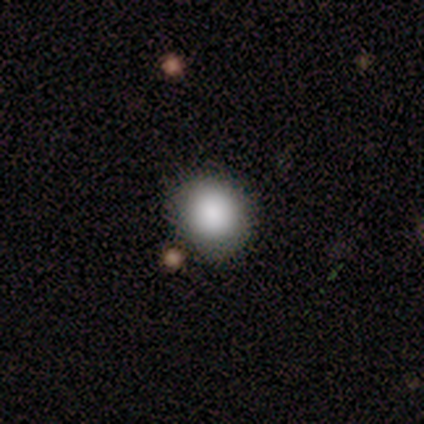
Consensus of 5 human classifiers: smooth_or_featured: smooth (p=1.00)
how_rounded: round (p=1.00)
merging: none (p=0.80) [alt: merger p=0.20]